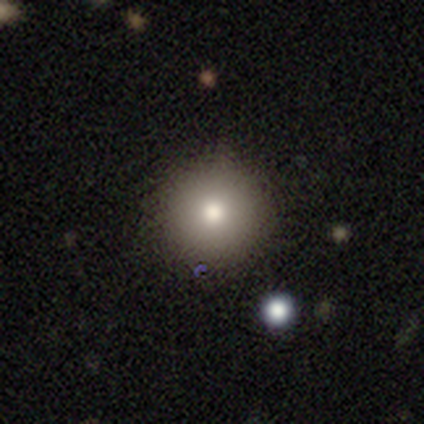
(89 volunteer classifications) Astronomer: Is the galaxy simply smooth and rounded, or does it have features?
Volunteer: smooth — 70%.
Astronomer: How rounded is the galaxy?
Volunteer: round — 98%.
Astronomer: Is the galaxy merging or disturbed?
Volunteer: none — 88%.